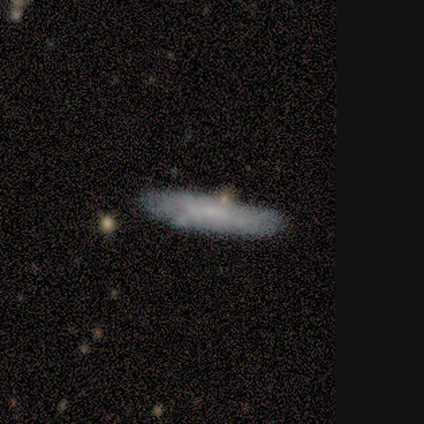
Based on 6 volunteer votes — Smooth or featured?
  - featured or disk: 83% *
  - smooth: 17%
  - star or artifact: 0%
Edge-on disk?
  - yes: 80% *
  - no: 20%
Edge-on bulge?
  - none: 100% *
  - boxy: 0%
  - rounded: 0%
Merging?
  - none: 83% *
  - minor disturbance: 17%
  - major disturbance: 0%
  - merger: 0%